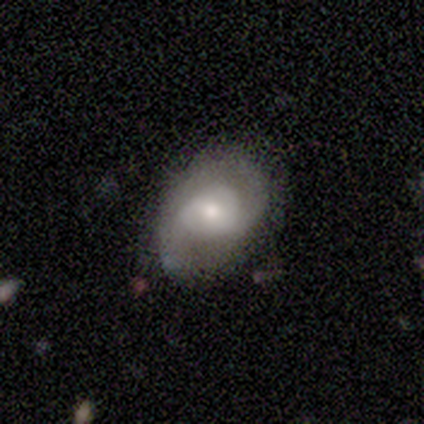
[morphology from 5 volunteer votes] Smooth or featured: featured or disk — 60% (smooth — 20%)
Edge-on disk: no — 67% (yes — 33%)
Bar: weak — 50% (tied with no — 50%)
Spiral arms: yes — 100%
Spiral winding: loose — 100%
Spiral arm count: 2 — 100%
Bulge size: small — 100%
Merging: none — 75% (major disturbance — 25%)